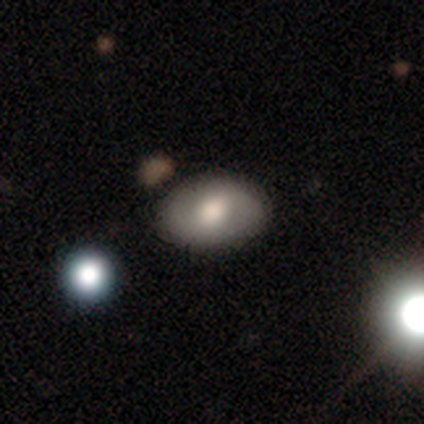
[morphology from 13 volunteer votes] smooth-or-featured: smooth: 62% | featured or disk: 38% | star or artifact: 0%
  how-rounded: in between: 75% | round: 25% | cigar-shaped: 0%
  merging: none: 92% | minor disturbance: 8% | major disturbance: 0% | merger: 0%